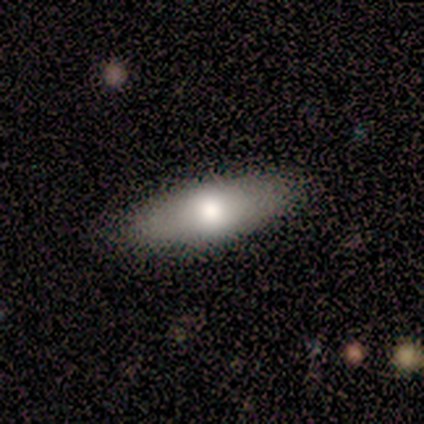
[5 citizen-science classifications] Volunteers were most divided on "smooth or featured": smooth: 60%, featured or disk: 40%, star or artifact: 0%. More confident: merging — none (100%); how rounded — in between (67%).